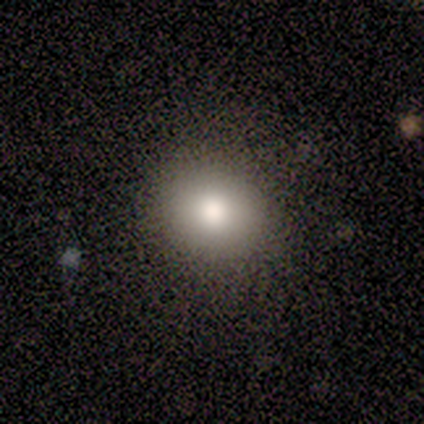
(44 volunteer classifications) A smooth galaxy with no disk features (86%) that is round (74%). Merging: none (85%).